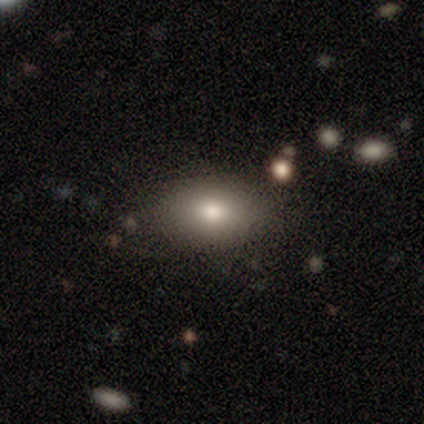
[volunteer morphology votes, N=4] A smooth galaxy with no disk features (75%) that is in between round and cigar-shaped (100%).

Vote fractions:
- Smooth or featured? smooth: 75% / featured or disk: 25% / star or artifact: 0%
- How rounded? in between: 100% / round: 0% / cigar-shaped: 0%
- Merging? none: 100% / minor disturbance: 0% / major disturbance: 0% / merger: 0%